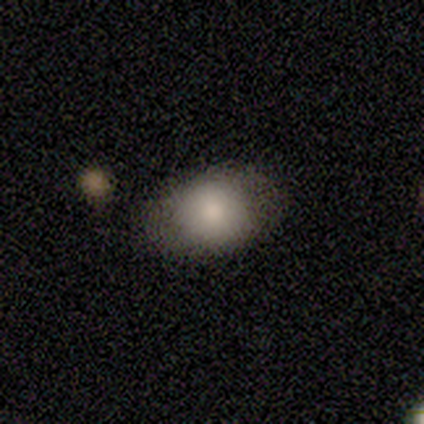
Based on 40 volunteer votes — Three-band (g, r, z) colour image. It shows a smooth galaxy with no disk features (82%) that is in between round and cigar-shaped (61%). Merging: none (46%).